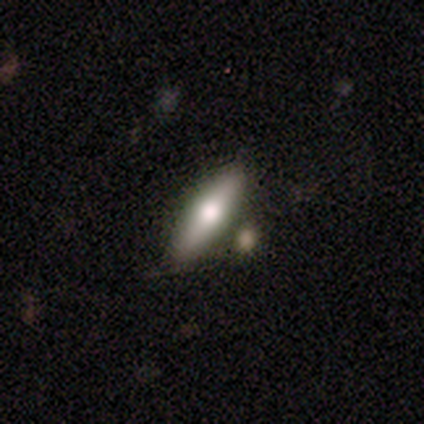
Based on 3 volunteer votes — A smooth galaxy with no disk features (67%) that is in between round and cigar-shaped (50%, tied with cigar-shaped). Merging: none (100%).